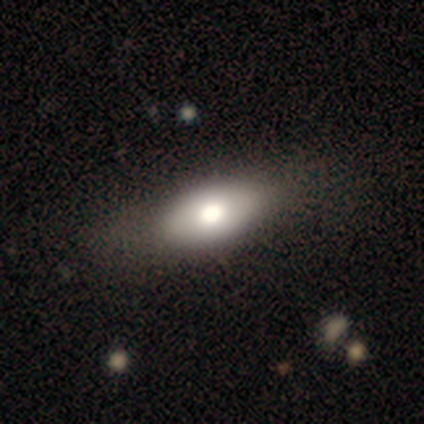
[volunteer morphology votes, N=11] Smooth or featured? smooth (64%)
How rounded? in between (100%)
Merging? none (80%)